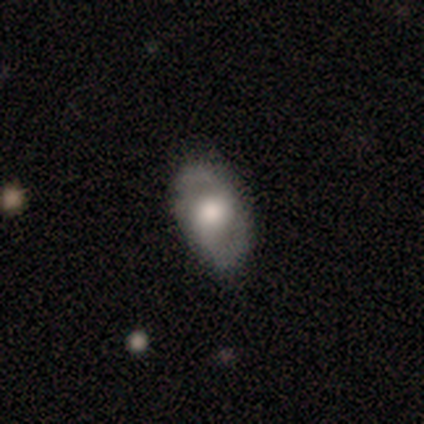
smooth-or-featured: smooth: 49% (tied) | featured or disk: 49% (tied) | star or artifact: 3%
  how-rounded: in between: 95% | round: 5% | cigar-shaped: 0%
  merging: none: 82% | minor disturbance: 13% | major disturbance: 5% | merger: 0%